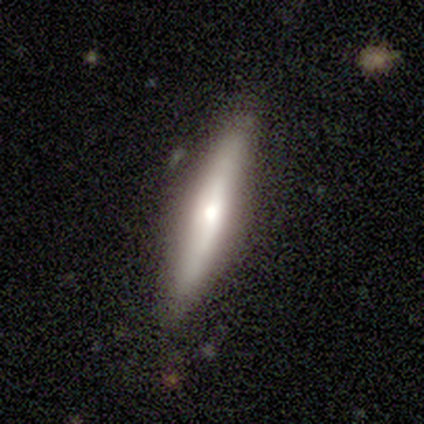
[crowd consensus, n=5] This is likely a featured or disk galaxy (60%). It is likely viewed edge-on (67%). Edge-on bulge: possibly boxy (50%, tied with rounded). Merging: likely none (60%).